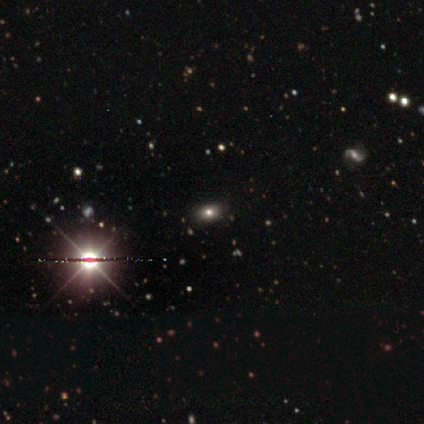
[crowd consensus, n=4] smooth 50% (tied), star or artifact 50% (tied), featured or disk 0%. Down the decision tree: how rounded — in between (100%); merging — none (100%).